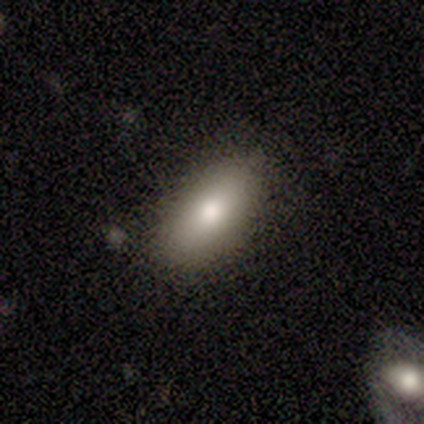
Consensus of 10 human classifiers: Smooth or featured? smooth (80%)
How rounded? in between (88%)
Merging? none (78%)